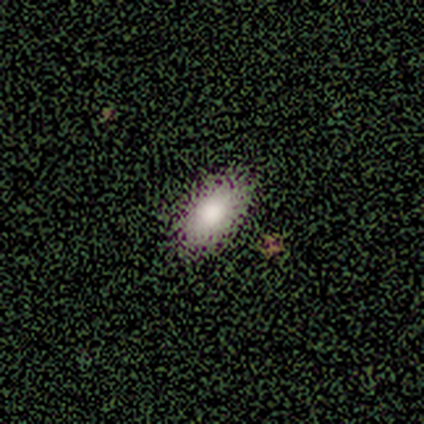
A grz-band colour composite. It shows a smooth galaxy with no disk features (64%) that is in between round and cigar-shaped (100%). Merging: none (88%).